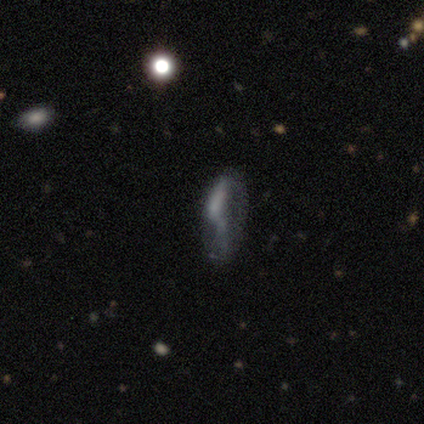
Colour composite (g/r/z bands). It shows a smooth galaxy with no disk features (40%, tied with star or artifact) that is round (50%, tied with in between). Merging: none (33%, tied with major disturbance and merger).